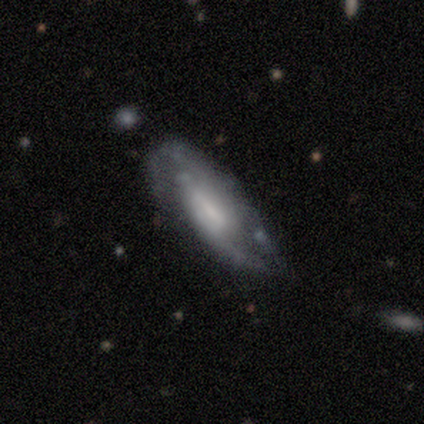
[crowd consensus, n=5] Smooth or featured? 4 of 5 (80%) said featured or disk. Edge-on disk? 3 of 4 (75%) said no. Bar? 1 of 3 (33%, tied with weak and no) said strong. Spiral arms? 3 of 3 (100%) said yes. Spiral winding? 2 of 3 (67%) said medium. Spiral arm count? 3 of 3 (100%) said 2. Bulge size? 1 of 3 (33%, tied with moderate and small) said large. Merging? 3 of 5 (60%) said none.